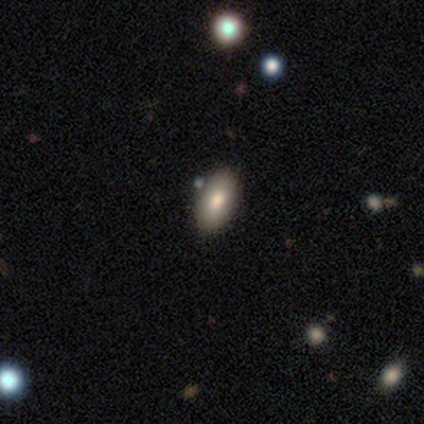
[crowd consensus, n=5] smooth_or_featured: smooth (p=1.00)
how_rounded: in between (p=1.00)
merging: none (p=0.80) [alt: minor disturbance p=0.20]